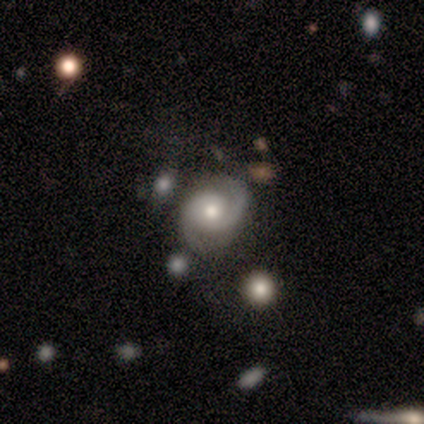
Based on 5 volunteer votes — Volunteers were most divided on "bar" (2-way tie): weak: 50%, no: 50%, strong: 0%. More confident: smooth or featured — featured or disk (100%); spiral arms — yes (100%); spiral arm count — 2 (100%); bulge size — moderate (100%); edge-on disk — no (80%); merging — none (80%); spiral winding — medium (75%).